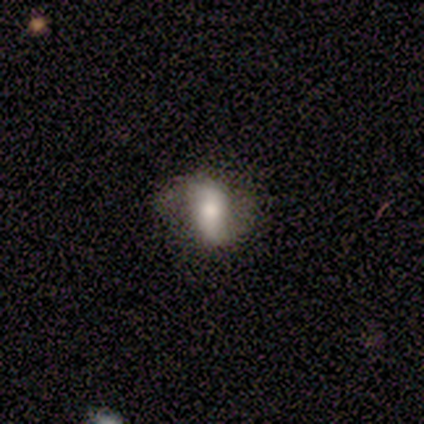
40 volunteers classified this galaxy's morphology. Q: Smooth or featured?
A: featured or disk (65%); runner-up: smooth (32%)
Q: Edge-on disk?
A: no (96%); runner-up: yes (4%)
Q: Bar?
A: strong (44%); runner-up: weak (32%)
Q: Spiral arms?
A: yes (64%); runner-up: no (36%)
Q: Spiral winding?
A: loose (88%); runner-up: medium (12%)
Q: Spiral arm count?
A: 2 (100%)
Q: Bulge size?
A: moderate (52%); runner-up: large (24%)
Q: Merging?
A: none (62%); runner-up: minor disturbance (10%)